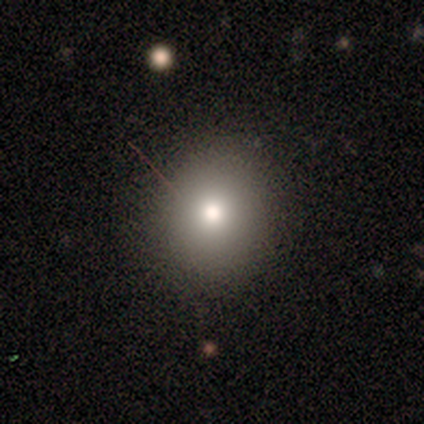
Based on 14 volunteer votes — smooth 86%, featured or disk 14%, star or artifact 0%. Down the decision tree: how rounded — round (92%); merging — none (93%).